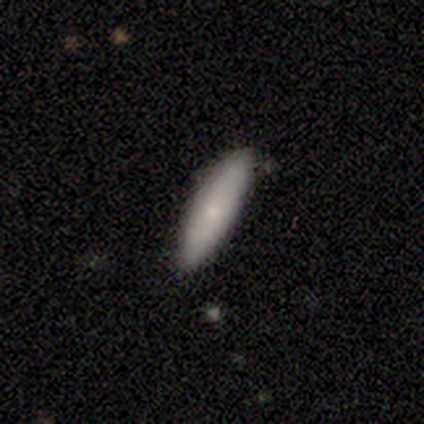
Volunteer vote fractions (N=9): smooth-or-featured: smooth: 78% | featured or disk: 11% | star or artifact: 11%
  how-rounded: cigar-shaped: 71% | in between: 29% | round: 0%
  merging: none: 100% | minor disturbance: 0% | major disturbance: 0% | merger: 0%